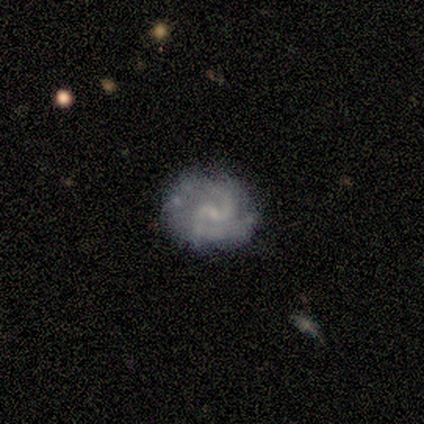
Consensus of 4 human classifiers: featured or disk 100%, smooth 0%, star or artifact 0%. Down the decision tree: edge-on disk — no (100%); bar — weak (50%); spiral arms — yes (100%); spiral arm count — 2 (75%); spiral winding — tight (75%); bulge size — none (75%); merging — none (75%).